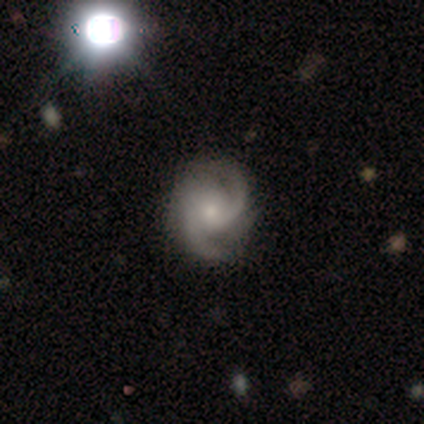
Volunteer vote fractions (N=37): smooth-or-featured: featured or disk: 92% | star or artifact: 5% | smooth: 3%
  disk-edge-on: no: 100% | yes: 0%
    bar: no: 71% | weak: 24% | strong: 6%
    has-spiral-arms: yes: 91% | no: 9%
      spiral-winding: medium: 61% | tight: 32% | loose: 6%
      spiral-arm-count: 2: 77% | 3: 16% | 4: 3% | can't tell: 3% | 1: 0% | more than 4: 0%
    bulge-size: small: 65% | moderate: 26% | none: 9% | dominant: 0% | large: 0%
  merging: none: 80% | minor disturbance: 17% | major disturbance: 3% | merger: 0%